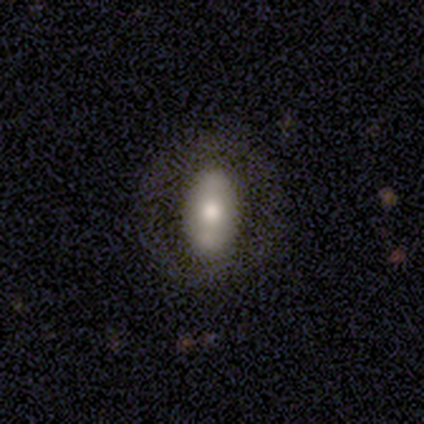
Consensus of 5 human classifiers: A smooth galaxy with no disk features (80%) that is in between round and cigar-shaped (100%). Merging: none (100%).